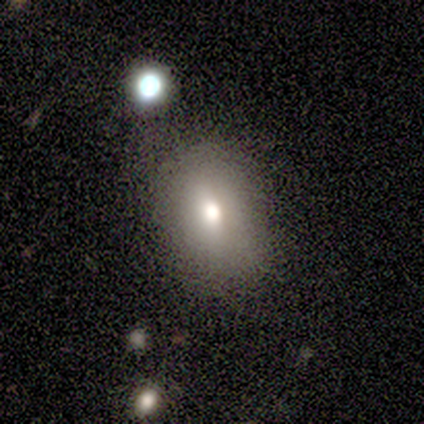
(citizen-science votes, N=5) Morphology: type=smooth (80%); roundness=round (75%); merging=none (60%).